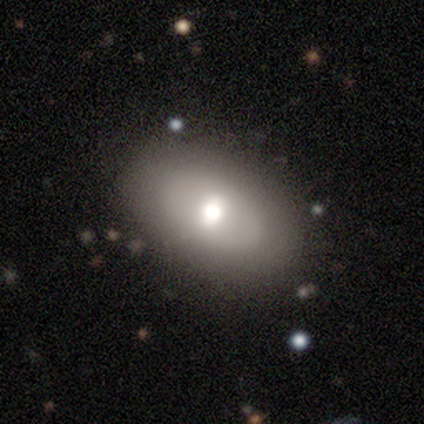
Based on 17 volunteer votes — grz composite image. It shows a smooth galaxy with no disk features (47%) that is in between round and cigar-shaped (88%). Merging: none (93%).